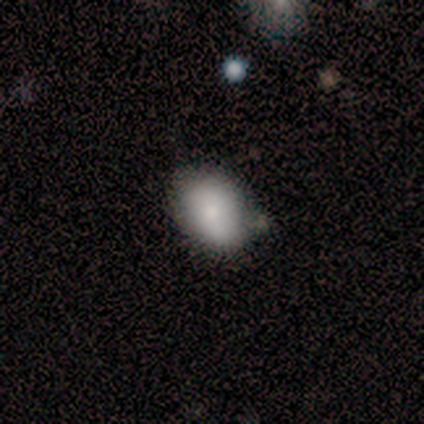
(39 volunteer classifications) This appears to be a smooth galaxy with no disk features (79%) that is in between round and cigar-shaped (74%). Merging: none (64%).